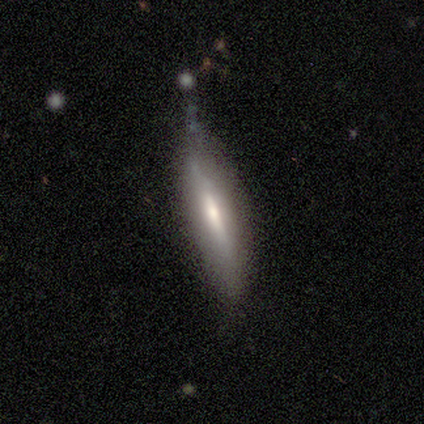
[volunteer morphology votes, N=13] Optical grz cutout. It shows a smooth galaxy with no disk features (77%) that is cigar-shaped (70%). Merging: none (62%).